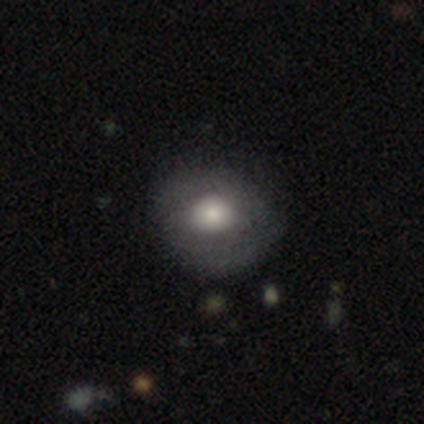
smooth-or-featured: smooth: 80% | featured or disk: 20% | star or artifact: 0%
  how-rounded: round: 100% | in between: 0% | cigar-shaped: 0%
  merging: none: 100% | minor disturbance: 0% | major disturbance: 0% | merger: 0%